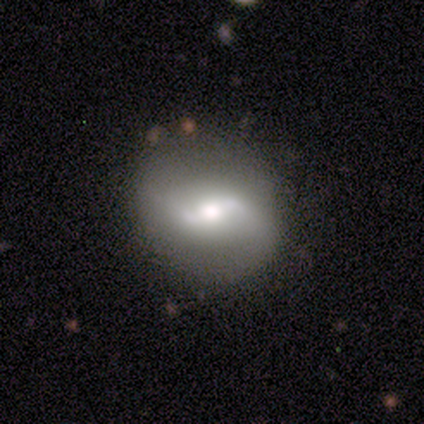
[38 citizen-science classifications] A featured or disk galaxy (84%) with a weak bar (57%), 2 (91%) loose (83%) spiral arms (82%) and a moderate central bulge (57%). Merging: none (82%).